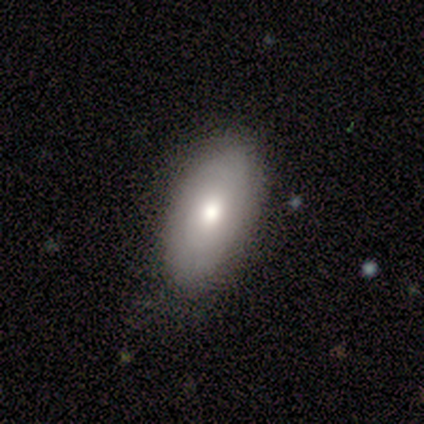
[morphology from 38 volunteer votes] smooth-or-featured: smooth: 53% | featured or disk: 45% | star or artifact: 3%
  how-rounded: in between: 85% | round: 10% | cigar-shaped: 5%
  merging: none: 81% | minor disturbance: 16% | major disturbance: 3% | merger: 0%